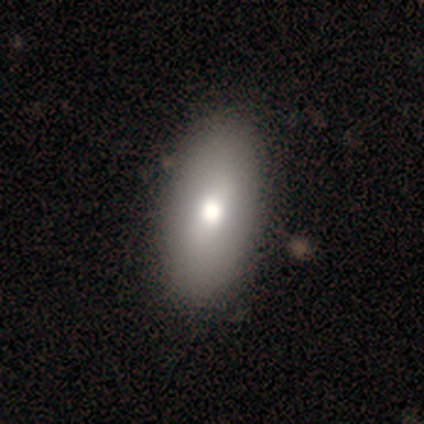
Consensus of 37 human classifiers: This is likely a smooth galaxy (76%). How rounded: clearly in between (96%). Merging: likely none (69%).